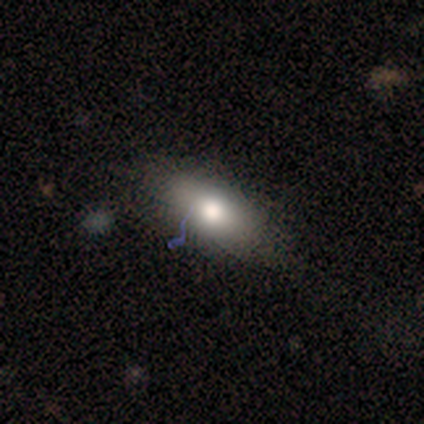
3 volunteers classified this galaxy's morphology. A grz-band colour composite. It shows a featured or disk galaxy (67%) with a strong bar (50%, tied with no), no spiral arms (100%) and a moderate central bulge (100%). Merging: none (100%).